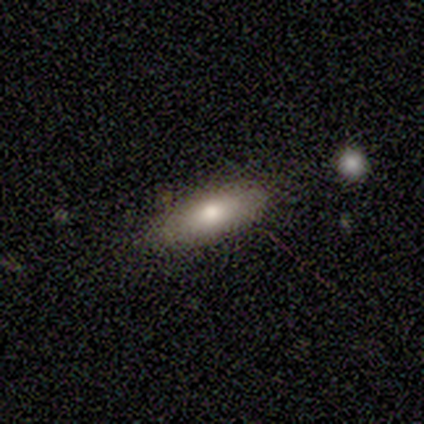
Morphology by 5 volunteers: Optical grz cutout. It shows a smooth galaxy with no disk features (100%) that is in between round and cigar-shaped (80%). Merging: none (60%).